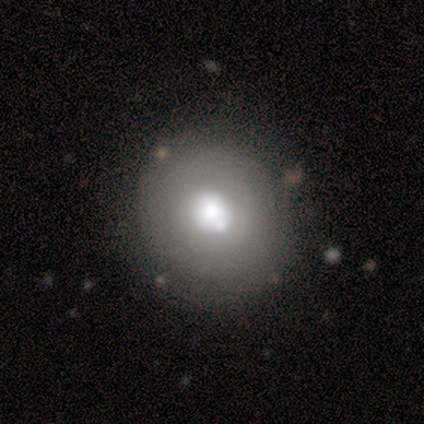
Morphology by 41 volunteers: Smooth or featured: featured or disk — 61% (smooth — 37%)
Edge-on disk: no — 100%
Bar: no — 88% (weak — 8%)
Spiral arms: no — 72% (yes — 28%)
Bulge size: moderate — 56% (large — 40%)
Merging: none — 65% (minor disturbance — 15%)